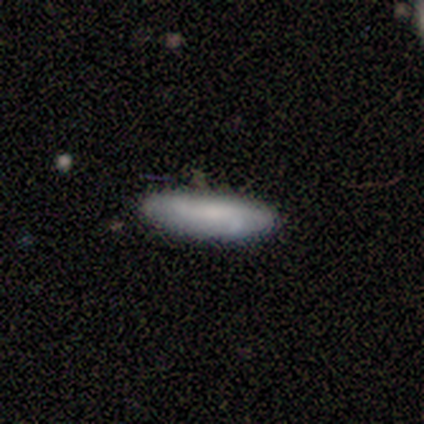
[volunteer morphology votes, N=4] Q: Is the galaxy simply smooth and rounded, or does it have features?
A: smooth — 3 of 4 (75%).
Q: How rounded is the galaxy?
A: in between — 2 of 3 (67%).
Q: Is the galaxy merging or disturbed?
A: none — 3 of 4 (75%).